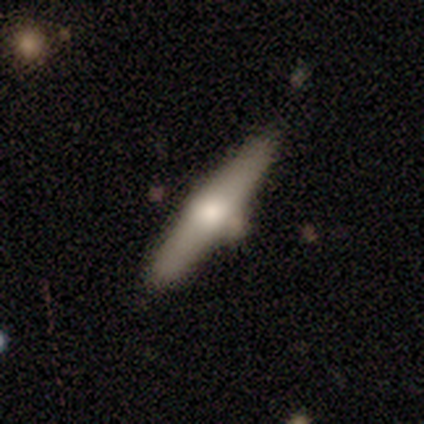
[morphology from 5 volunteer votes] smooth-or-featured: featured or disk: 60% | smooth: 40% | star or artifact: 0%
  disk-edge-on: yes: 67% | no: 33%
    edge-on-bulge: boxy: 50% (tied) | rounded: 50% (tied) | none: 0%
  merging: none: 60% | major disturbance: 40% | minor disturbance: 0% | merger: 0%